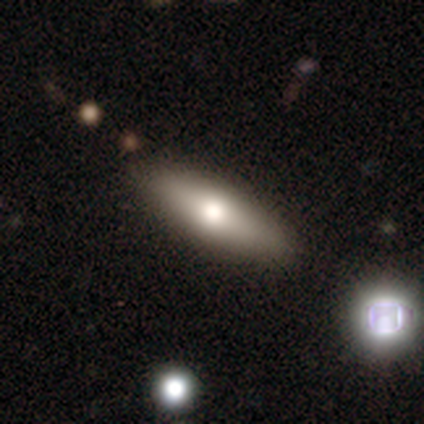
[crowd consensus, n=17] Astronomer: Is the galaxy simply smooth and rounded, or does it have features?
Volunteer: smooth — 59% (runner-up: featured or disk, 41%).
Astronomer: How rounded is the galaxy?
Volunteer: in between — 50%, tied with cigar-shaped at 50%.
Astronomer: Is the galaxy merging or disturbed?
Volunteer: none — 100%.